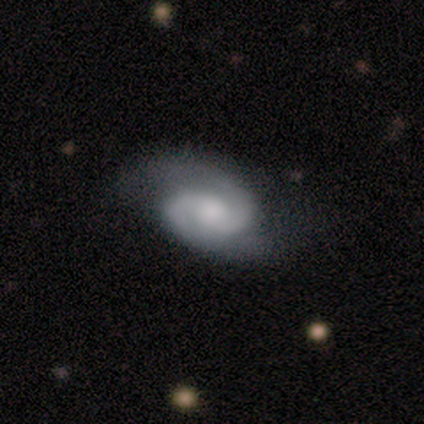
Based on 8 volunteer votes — Smooth or featured: featured or disk — 88% (star or artifact — 12%)
Edge-on disk: no — 100%
Bar: no — 57% (weak — 43%)
Spiral arms: yes — 100%
Spiral winding: tight — 71% (medium — 14%)
Spiral arm count: 2 — 100%
Bulge size: moderate — 71% (large — 14%)
Merging: none — 71% (minor disturbance — 29%)